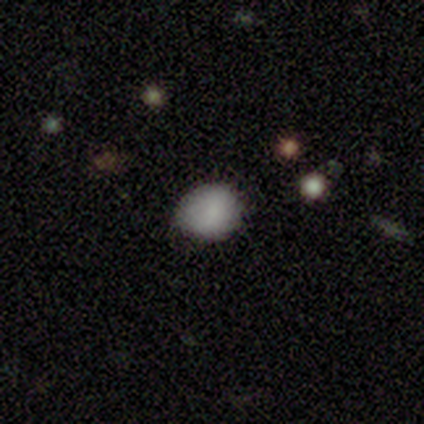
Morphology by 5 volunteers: Q: Smooth or featured?
A: smooth (80%); runner-up: featured or disk (20%)
Q: How rounded?
A: round (50%); tied with: in between (50%)
Q: Merging?
A: none (80%); runner-up: minor disturbance (20%)